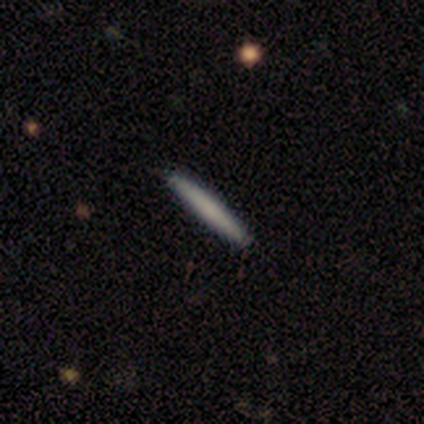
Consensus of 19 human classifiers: Smooth or featured: smooth — 79% (featured or disk — 21%)
How rounded: cigar-shaped — 100%
Merging: none — 100%